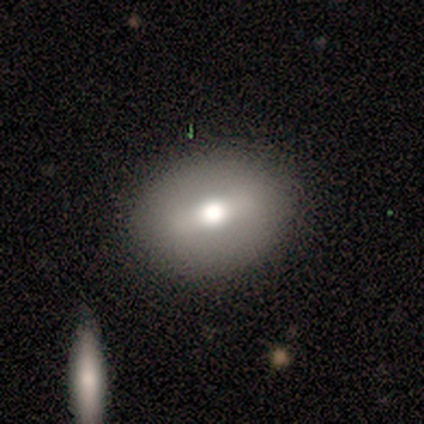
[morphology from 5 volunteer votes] smooth-or-featured: smooth: 80% | star or artifact: 20% | featured or disk: 0%
  how-rounded: round: 50% (tied) | in between: 50% (tied) | cigar-shaped: 0%
  merging: none: 100% | minor disturbance: 0% | major disturbance: 0% | merger: 0%